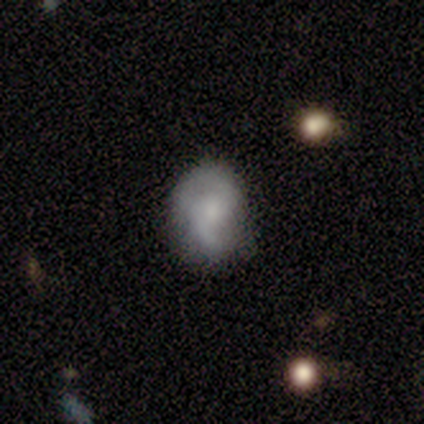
Smooth or featured? 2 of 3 (67%) said featured or disk. Edge-on disk? 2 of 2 (100%) said no. Bar? 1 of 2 (50%, tied with no) said weak. Spiral arms? 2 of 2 (100%) said yes. Spiral winding? 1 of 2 (50%, tied with medium) said tight. Spiral arm count? 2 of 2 (100%) said 2. Bulge size? 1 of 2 (50%, tied with none) said dominant. Merging? 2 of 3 (67%) said none.